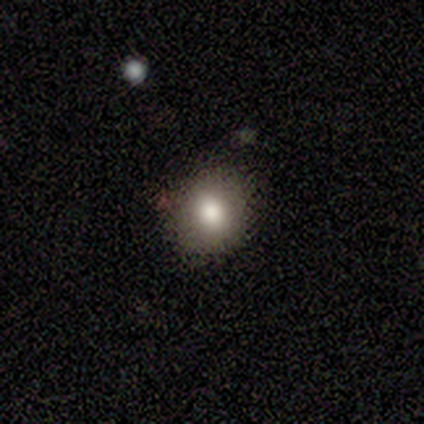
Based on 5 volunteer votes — Morphology: type=smooth (80%); roundness=round (75%); merging=none (50%).